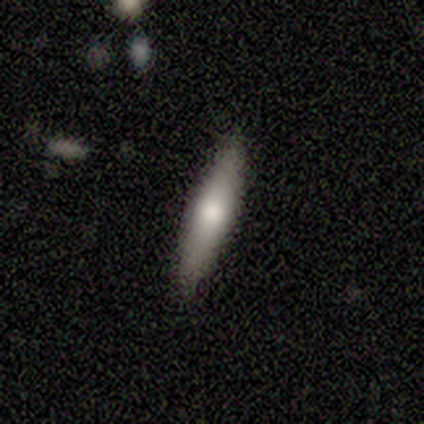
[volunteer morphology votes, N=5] This appears to be a smooth galaxy with no disk features (80%) that is cigar-shaped (75%). Merging: none (100%).